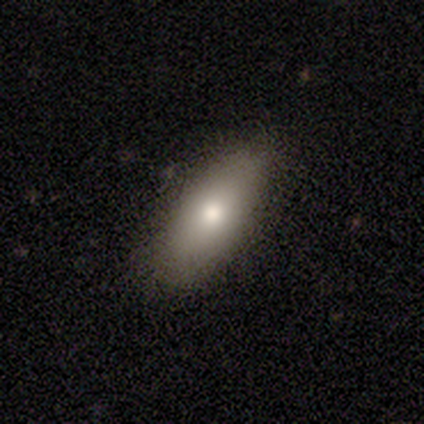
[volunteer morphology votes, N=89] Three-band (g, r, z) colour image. It shows a smooth galaxy with no disk features (76%) that is in between round and cigar-shaped (84%). Merging: none (83%).